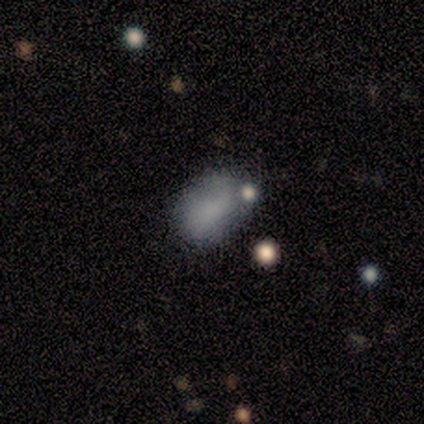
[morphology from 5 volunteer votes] This is marginally a smooth galaxy (40%, tied with star or artifact). How rounded: clearly in between (100%). Merging: marginally none (33%, tied with minor disturbance and merger).